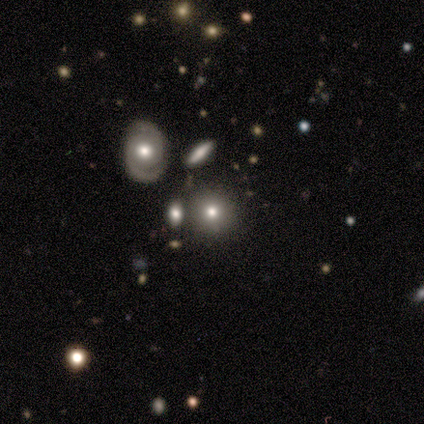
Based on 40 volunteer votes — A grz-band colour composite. It shows a smooth galaxy with no disk features (57%) that is round (91%). Merging: none (78%).